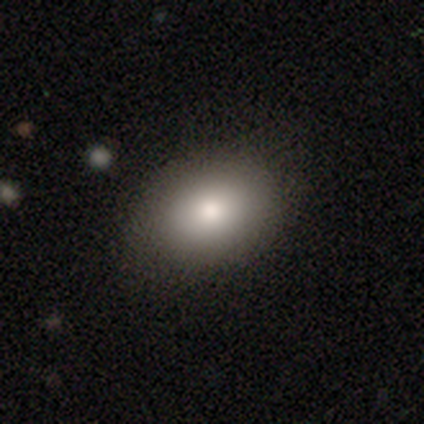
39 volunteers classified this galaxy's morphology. Q: Smooth or featured?
A: smooth (79%); runner-up: featured or disk (18%)
Q: How rounded?
A: in between (71%); runner-up: round (29%)
Q: Merging?
A: none (87%); runner-up: minor disturbance (8%)